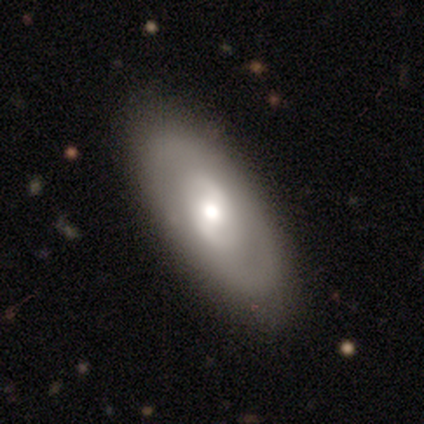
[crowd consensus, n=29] A featured or disk galaxy (55%) with a weak bar (50%, tied with no), 2 (67%) medium (56%) spiral arms (56%) and a moderate central bulge (75%).

Vote fractions:
- Smooth or featured? featured or disk: 55% / smooth: 34% / star or artifact: 10%
- Edge-on disk? no: 100% / yes: 0%
- Bar? weak: 50% (tied) / no: 50% (tied) / strong: 0%
- Spiral arms? yes: 56% / no: 44%
- Spiral winding? medium: 56% / tight: 22% / loose: 22%
- Spiral arm count? 2: 67% / can't tell: 22% / 3: 11% / 1: 0% / 4: 0% / more than 4: 0%
- Bulge size? moderate: 75% / small: 19% / large: 6% / dominant: 0% / none: 0%
- Merging? none: 42% / merger: 8% / minor disturbance: 4% / major disturbance: 0%